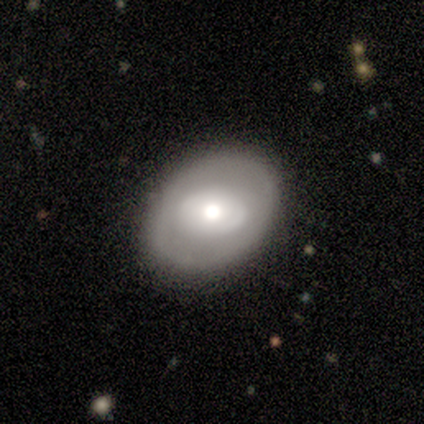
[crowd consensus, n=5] Smooth or featured? featured or disk (60%)
Edge-on disk? no (100%)
Bar? no (100%)
Spiral arms? no (100%)
Bulge size? large (67%)
Merging? none (100%)